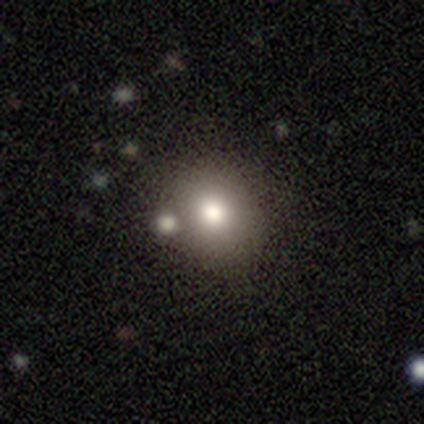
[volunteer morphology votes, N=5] smooth_or_featured: smooth (p=0.60) [alt: featured or disk p=0.40]
how_rounded: round (p=0.67) [alt: in between p=0.33]
merging: merger (p=0.60) [alt: minor disturbance p=0.40]